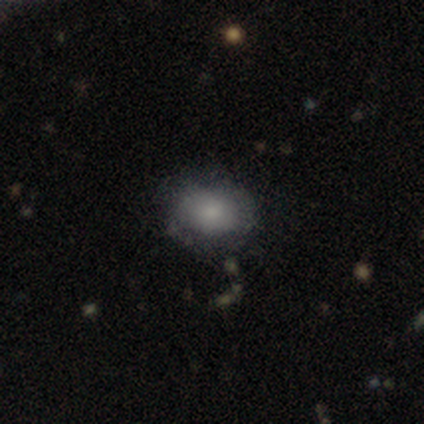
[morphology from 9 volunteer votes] type=smooth (56%); roundness=in between (80%); merging=none (75%).